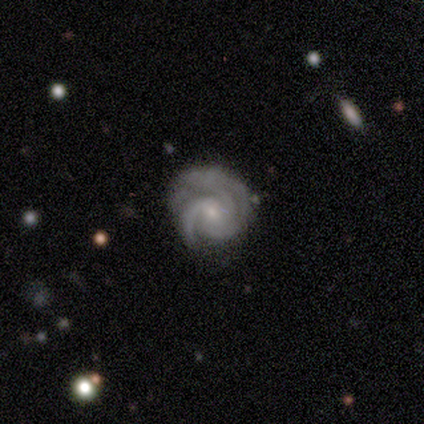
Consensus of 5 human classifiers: Overall: featured or disk (80%). Edge-on disk: no (100%). Bar: no (100%). Spiral arms: yes (100%). Spiral arm count: can't tell (100%). Spiral winding: tight (100%). Bulge size: moderate (50%, tied with small). Merging: none (50%, tied with minor disturbance).